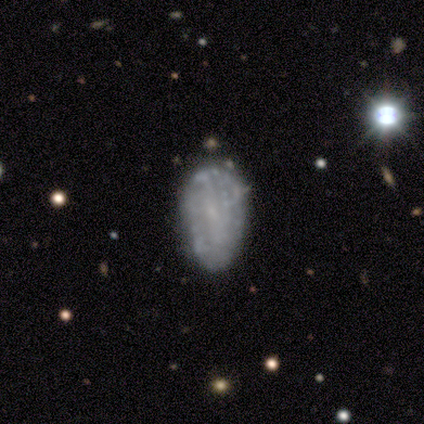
smooth_or_featured: smooth (p=0.50) [tied with: featured or disk p=0.50]
how_rounded: in between (p=1.00)
merging: none (p=0.75) [alt: minor disturbance p=0.25]